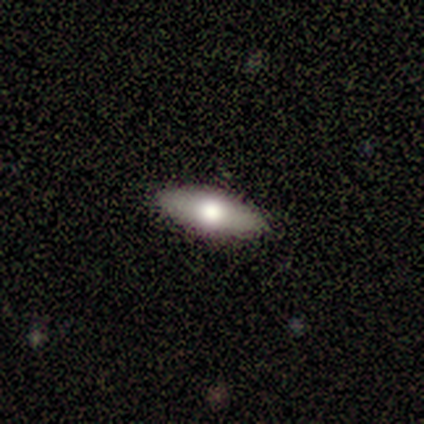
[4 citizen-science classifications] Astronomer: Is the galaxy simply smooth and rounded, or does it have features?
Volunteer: smooth — 50%, tied with featured or disk at 50%.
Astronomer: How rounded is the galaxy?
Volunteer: in between — 50%, tied with cigar-shaped at 50%.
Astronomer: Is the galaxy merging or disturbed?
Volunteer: none — 75%.